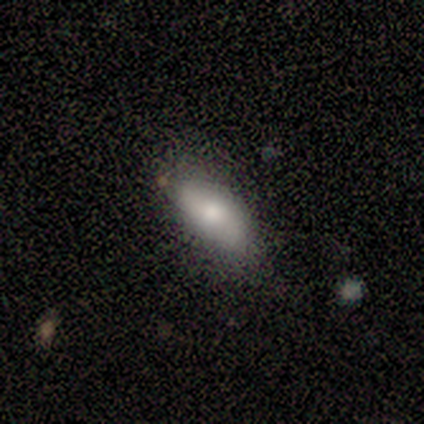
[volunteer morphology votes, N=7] This appears to be a featured or disk galaxy (57%) with no bar (67%), no spiral arms (67%) and a small central bulge (67%). Merging: none (86%).